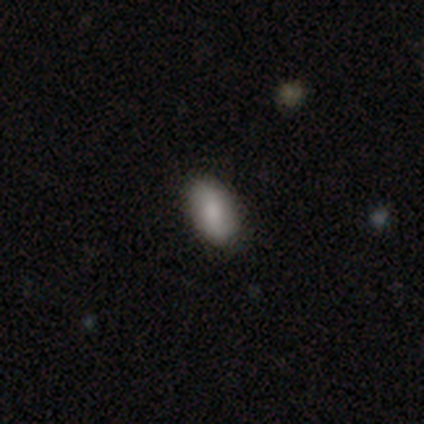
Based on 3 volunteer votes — smooth-or-featured: smooth: 67% | featured or disk: 33% | star or artifact: 0%
  how-rounded: in between: 100% | round: 0% | cigar-shaped: 0%
  merging: none: 100% | minor disturbance: 0% | major disturbance: 0% | merger: 0%